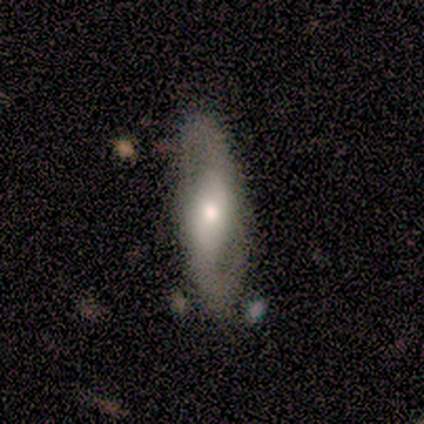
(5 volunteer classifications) Smooth or featured? 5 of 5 (100%) said featured or disk. Edge-on disk? 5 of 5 (100%) said no. Bar? 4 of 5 (80%) said weak. Spiral arms? 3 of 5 (60%) said yes. Spiral winding? 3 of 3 (100%) said loose. Spiral arm count? 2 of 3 (67%) said 2. Bulge size? 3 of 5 (60%) said small. Merging? 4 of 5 (80%) said none.